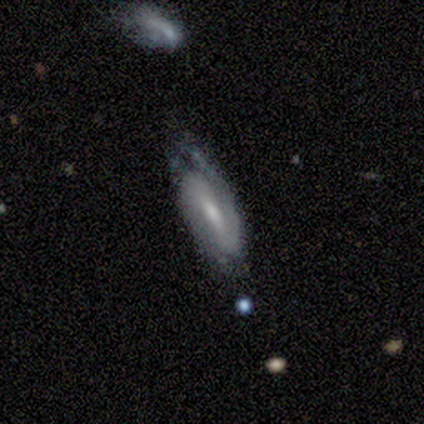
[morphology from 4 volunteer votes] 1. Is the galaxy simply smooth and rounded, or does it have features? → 100% featured or disk, 0% smooth, 0% star or artifact.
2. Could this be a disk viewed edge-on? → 75% no, 25% yes.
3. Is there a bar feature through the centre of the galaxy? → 67% weak, 33% strong, 0% no.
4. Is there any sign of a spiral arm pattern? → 100% yes, 0% no.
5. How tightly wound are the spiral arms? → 67% medium, 33% tight, 0% loose.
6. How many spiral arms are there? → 100% 2, 0% 1, 0% 3, 0% 4, 0% more than 4, 0% can't tell.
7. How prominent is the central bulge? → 100% moderate, 0% dominant, 0% large, 0% small, 0% none.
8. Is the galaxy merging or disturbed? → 75% none, 25% minor disturbance, 0% major disturbance, 0% merger.